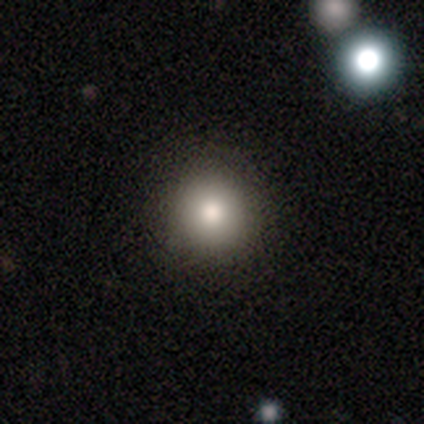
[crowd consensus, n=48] A smooth galaxy with no disk features (83%) that is round (92%). Merging: none (98%).